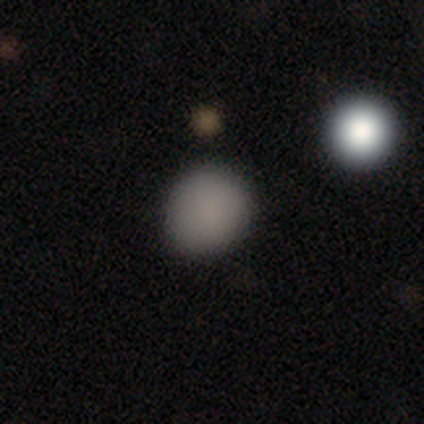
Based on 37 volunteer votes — This is clearly a smooth galaxy (84%). How rounded: likely round (77%). Merging: likely none (71%).